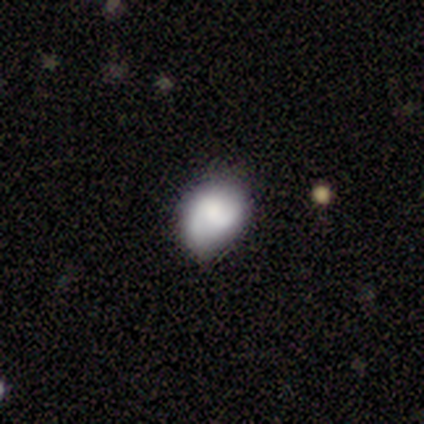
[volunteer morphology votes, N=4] Smooth or featured? smooth (100%)
How rounded? round (50%, tied with in between)
Merging? minor disturbance (75%)